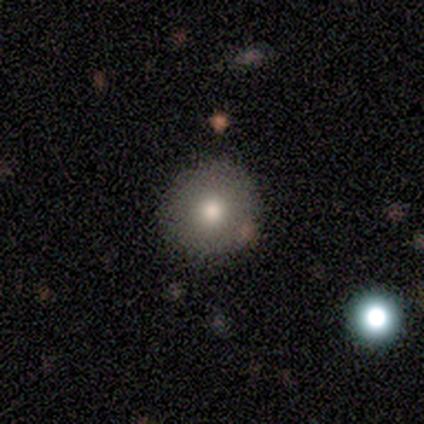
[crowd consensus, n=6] Smooth or featured? smooth (67%)
How rounded? round (75%)
Merging? none (83%)